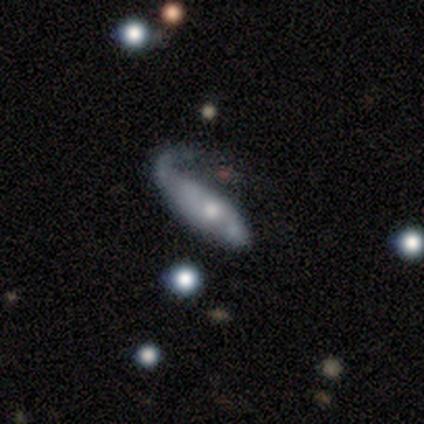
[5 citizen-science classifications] Volunteers were most divided on "merging": major disturbance: 60%, minor disturbance: 40%, none: 0%, merger: 0%. More confident: bar — no (100%); bulge size — moderate (100%); smooth or featured — featured or disk (80%); edge-on disk — no (75%); spiral arms — no (67%).